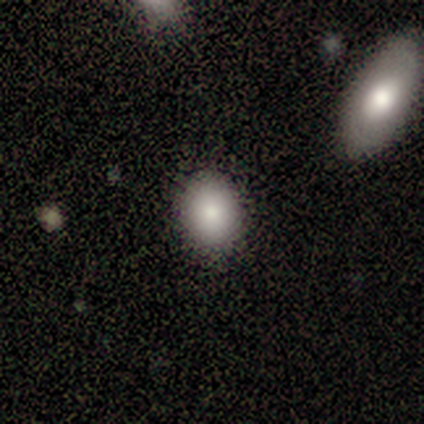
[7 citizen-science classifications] smooth_or_featured: smooth (p=0.86) [alt: star or artifact p=0.14]
how_rounded: round (p=0.50) [tied with: in between p=0.50]
merging: none (p=0.67) [alt: minor disturbance p=0.33]